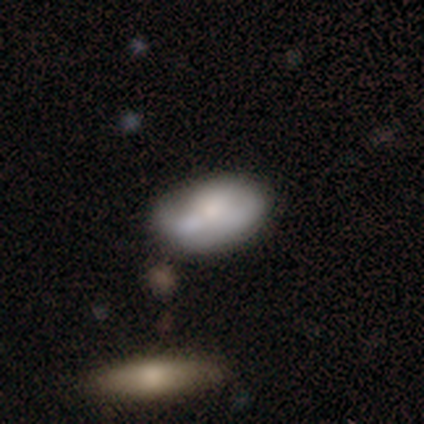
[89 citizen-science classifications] smooth 64%, featured or disk 30%, star or artifact 6%. Down the decision tree: how rounded — in between (91%); merging — none (45%).